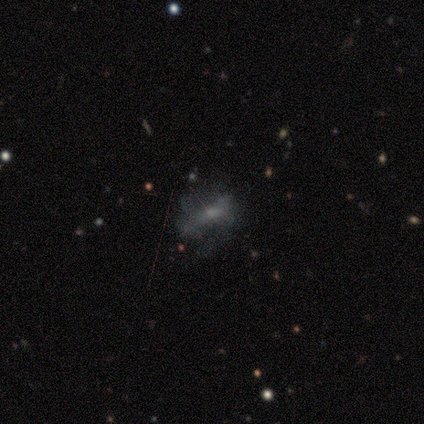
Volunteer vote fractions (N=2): Q: Smooth or featured?
A: smooth (50%); tied with: featured or disk (50%)
Q: How rounded?
A: in between (100%)
Q: Merging?
A: none (50%); tied with: minor disturbance (50%)